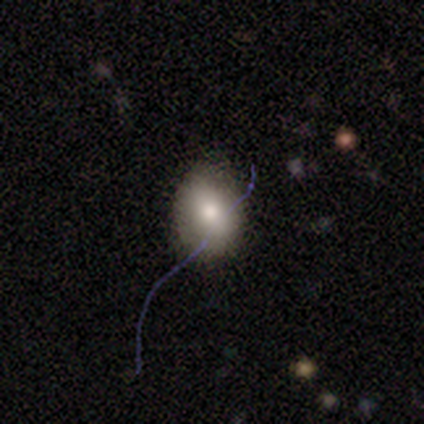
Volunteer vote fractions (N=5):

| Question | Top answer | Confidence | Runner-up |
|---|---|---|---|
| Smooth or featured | smooth | 80% | featured or disk (20%) |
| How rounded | round | 75% | in between (25%) |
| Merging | none | 80% | major disturbance (20%) |